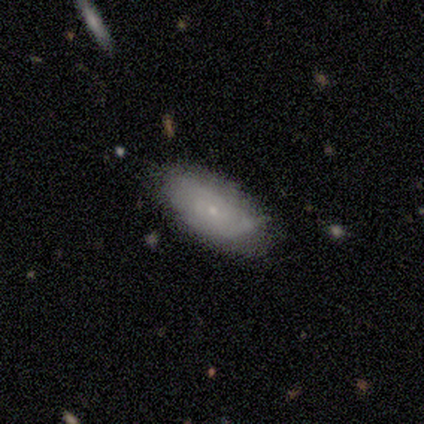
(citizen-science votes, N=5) Smooth or featured? smooth (100%)
How rounded? in between (80%)
Merging? none (80%)